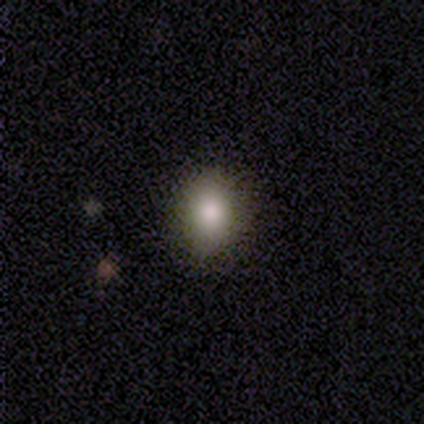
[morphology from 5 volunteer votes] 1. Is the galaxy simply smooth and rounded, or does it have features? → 100% smooth, 0% featured or disk, 0% star or artifact.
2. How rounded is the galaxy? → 60% round, 40% in between, 0% cigar-shaped.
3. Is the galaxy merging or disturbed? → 60% none, 40% minor disturbance, 0% major disturbance, 0% merger.